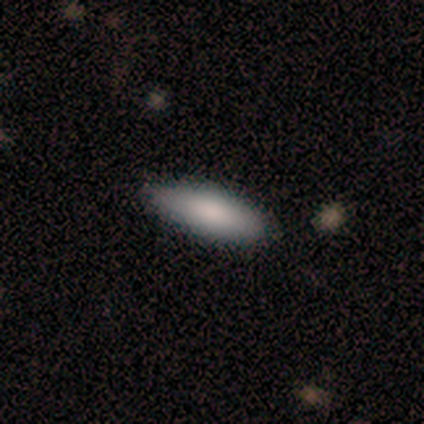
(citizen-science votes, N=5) Overall: smooth (100%). How rounded: in between (60%; cigar-shaped 40%). Merging: none (80%).